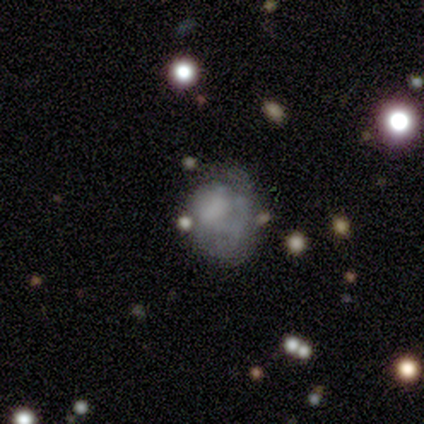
smooth_or_featured: featured or disk (p=0.59) [alt: smooth p=0.31]
disk_edge_on: no (p=0.96) [alt: yes p=0.04]
bar: no (p=0.95) [alt: weak p=0.05]
has_spiral_arms: no (p=0.82) [alt: yes p=0.18]
bulge_size: none (p=0.68) [alt: moderate p=0.14]
merging: minor disturbance (p=0.31) [alt: none p=0.23]